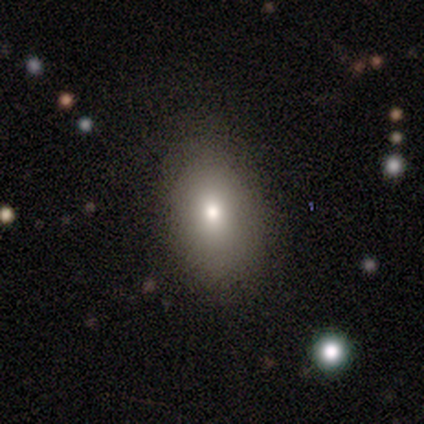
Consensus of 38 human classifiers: smooth_or_featured: smooth (p=0.76) [alt: star or artifact p=0.13]
how_rounded: in between (p=0.86) [alt: round p=0.14]
merging: none (p=0.88) [alt: minor disturbance p=0.09]